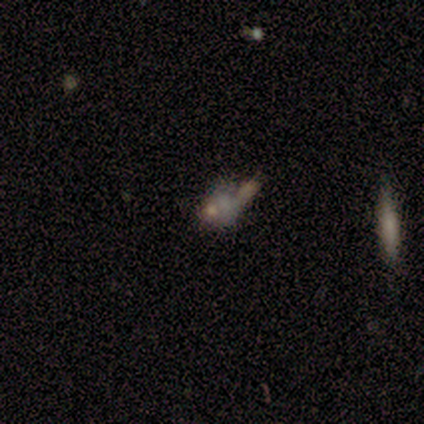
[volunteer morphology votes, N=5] A smooth galaxy with no disk features (60%) that is round (67%). Merging: merger (50%).